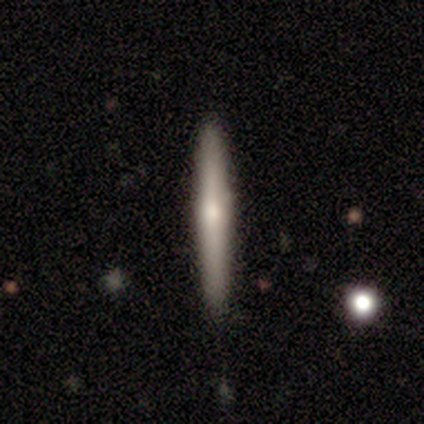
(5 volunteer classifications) A featured or disk galaxy (60%) viewed edge-on (100%) with a rounded central bulge (100%).

Vote fractions:
- Smooth or featured? featured or disk: 60% / smooth: 40% / star or artifact: 0%
- Edge-on disk? yes: 100% / no: 0%
- Edge-on bulge? rounded: 100% / boxy: 0% / none: 0%
- Merging? none: 60% / minor disturbance: 20% / major disturbance: 20% / merger: 0%